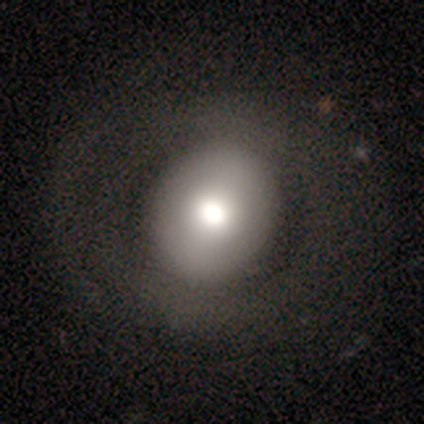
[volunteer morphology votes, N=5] Q: Smooth or featured?
A: smooth (60%); runner-up: star or artifact (40%)
Q: How rounded?
A: round (67%); runner-up: in between (33%)
Q: Merging?
A: none (67%); runner-up: minor disturbance (33%)